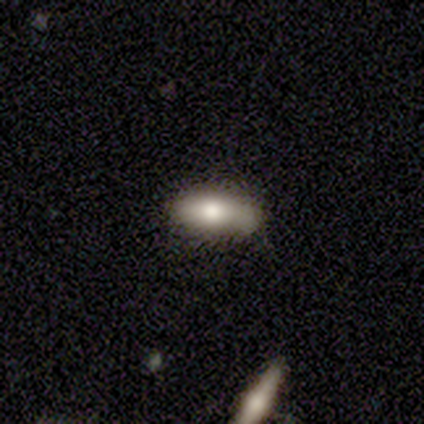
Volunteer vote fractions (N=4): smooth_or_featured: smooth (p=0.75) [alt: featured or disk p=0.25]
how_rounded: in between (p=1.00)
merging: none (p=0.75) [alt: major disturbance p=0.25]